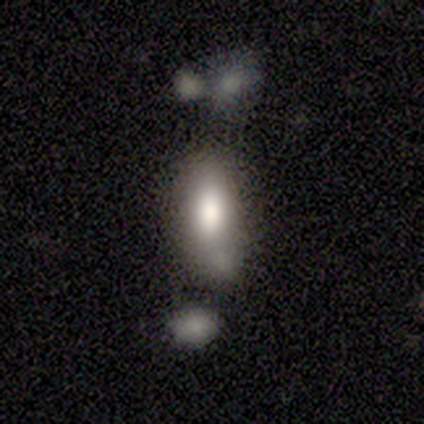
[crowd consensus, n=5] smooth 40% (tied), star or artifact 40% (tied), featured or disk 20%. Down the decision tree: how rounded — in between (50%, tied with cigar-shaped); merging — none (33%, tied with major disturbance and merger).